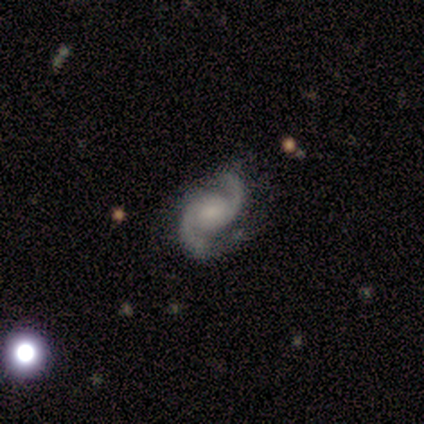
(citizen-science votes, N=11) smooth-or-featured: featured or disk: 91% | smooth: 9% | star or artifact: 0%
  disk-edge-on: no: 90% | yes: 10%
    bar: no: 56% | weak: 44% | strong: 0%
    has-spiral-arms: yes: 89% | no: 11%
      spiral-winding: medium: 75% | tight: 12% | loose: 12%
      spiral-arm-count: 2: 100% | 1: 0% | 3: 0% | 4: 0% | more than 4: 0% | can't tell: 0%
    bulge-size: small: 67% | none: 33% | dominant: 0% | large: 0% | moderate: 0%
  merging: none: 55% | minor disturbance: 27% | merger: 18% | major disturbance: 0%